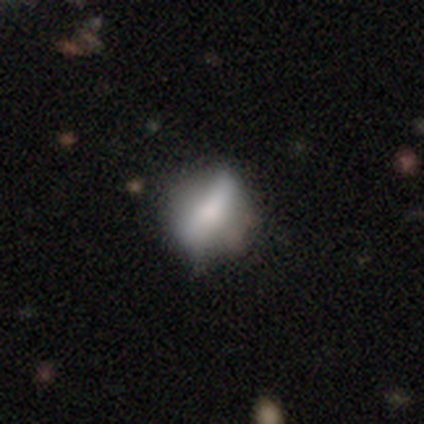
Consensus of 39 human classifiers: Smooth or featured: smooth — 62% (featured or disk — 33%)
How rounded: in between — 50% (round — 29%)
Merging: none — 49% (minor disturbance — 30%)